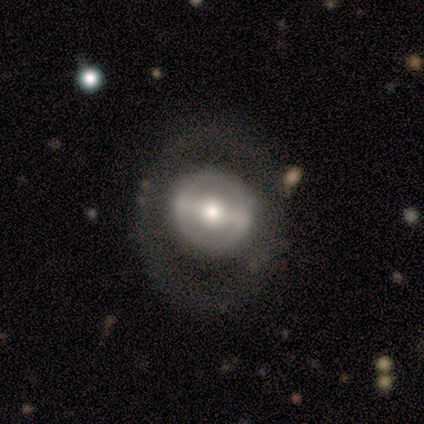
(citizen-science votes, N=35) Smooth or featured? featured or disk (69%)
Edge-on disk? no (92%)
Bar? strong (64%)
Spiral arms? no (86%)
Bulge size? moderate (59%)
Merging? none (77%)